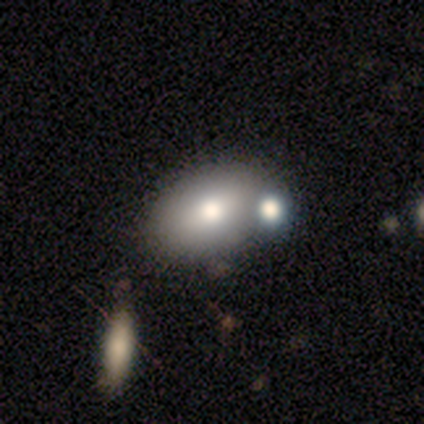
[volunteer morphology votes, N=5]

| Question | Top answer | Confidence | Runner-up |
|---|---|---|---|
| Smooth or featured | smooth | 80% | star or artifact (20%) |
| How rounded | in between | 100% | — |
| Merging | none | 50% | minor disturbance (25%) |